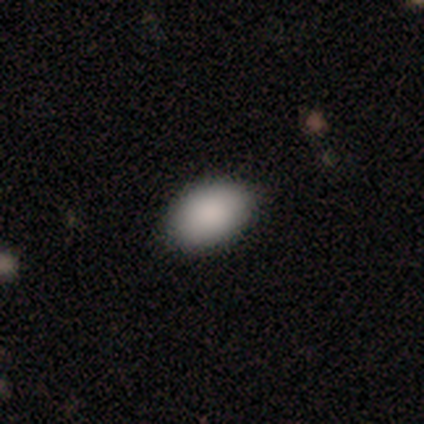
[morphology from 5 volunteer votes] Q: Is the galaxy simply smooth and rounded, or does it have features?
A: smooth — 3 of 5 (60%).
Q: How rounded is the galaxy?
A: in between — 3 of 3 (100%).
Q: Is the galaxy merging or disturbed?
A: none — 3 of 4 (75%).